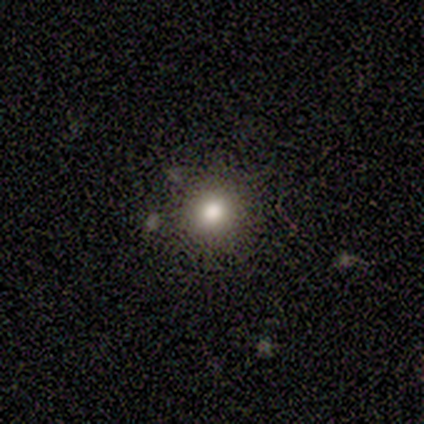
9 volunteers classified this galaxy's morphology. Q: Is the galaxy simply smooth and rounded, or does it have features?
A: smooth — 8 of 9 (89%).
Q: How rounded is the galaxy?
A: round — 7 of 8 (88%).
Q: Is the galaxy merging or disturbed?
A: none — 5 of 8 (62%).